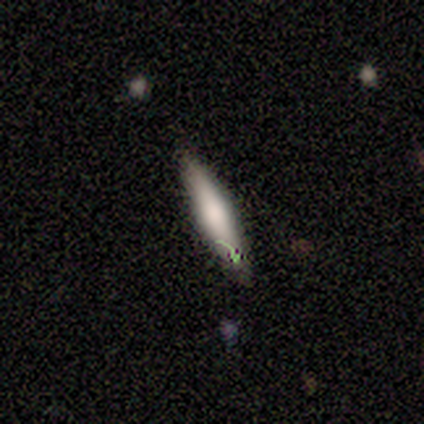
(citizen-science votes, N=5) Morphology: type=featured or disk (60%); edge-on=yes (100%); edge-on bulge=rounded (100%); merging=none (60%).